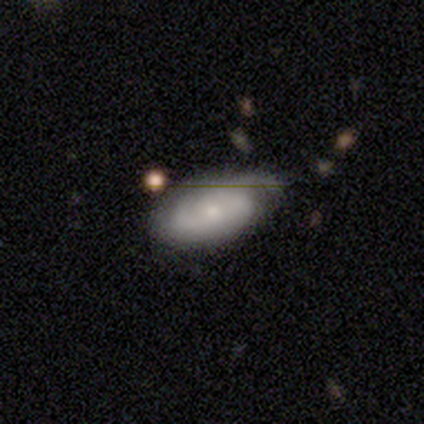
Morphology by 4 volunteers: smooth-or-featured: smooth: 50% (tied) | featured or disk: 50% (tied) | star or artifact: 0%
  how-rounded: in between: 100% | round: 0% | cigar-shaped: 0%
  merging: none: 75% | minor disturbance: 25% | major disturbance: 0% | merger: 0%